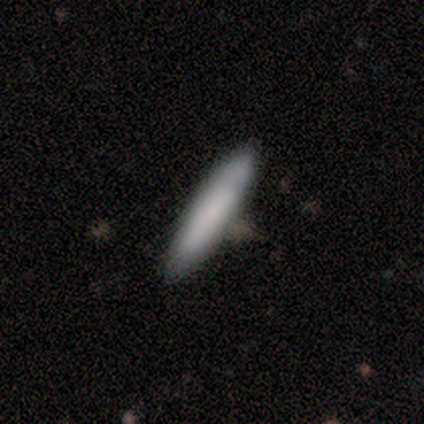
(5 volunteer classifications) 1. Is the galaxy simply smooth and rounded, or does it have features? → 100% smooth, 0% featured or disk, 0% star or artifact.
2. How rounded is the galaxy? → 60% cigar-shaped, 40% in between, 0% round.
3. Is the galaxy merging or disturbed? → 100% none, 0% minor disturbance, 0% major disturbance, 0% merger.